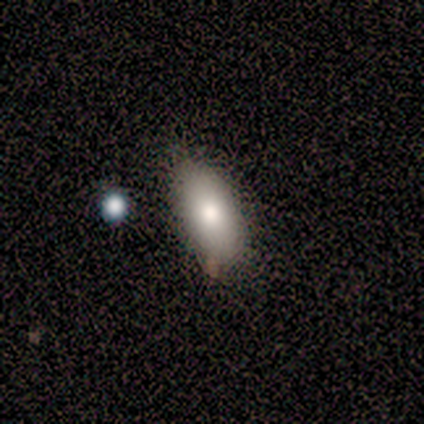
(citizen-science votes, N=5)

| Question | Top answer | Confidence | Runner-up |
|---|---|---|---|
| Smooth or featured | featured or disk | 40% | tied: star or artifact (40%) |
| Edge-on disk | no | 100% | — |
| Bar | no | 100% | — |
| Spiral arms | no | 100% | — |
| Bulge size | dominant | 50% | tied: moderate (50%) |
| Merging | none | 67% | minor disturbance (33%) |